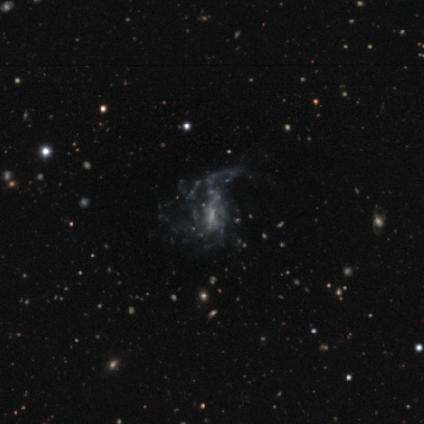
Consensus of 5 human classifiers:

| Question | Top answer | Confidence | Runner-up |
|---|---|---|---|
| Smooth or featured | featured or disk | 80% | star or artifact (20%) |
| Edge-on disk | no | 100% | — |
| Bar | no | 75% | weak (25%) |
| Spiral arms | yes | 50% | tied: no (50%) |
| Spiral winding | medium | 50% | tied: loose (50%) |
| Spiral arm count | can't tell | 100% | — |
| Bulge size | small | 75% | moderate (25%) |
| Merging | major disturbance | 50% | none (25%) |